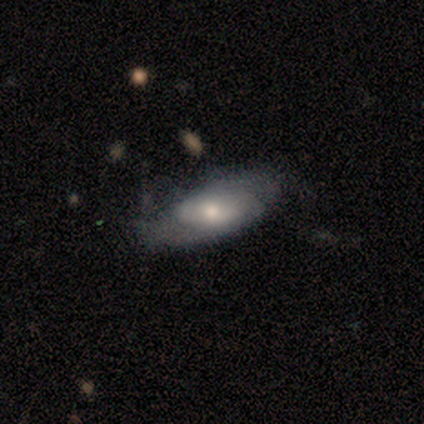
This appears to be a featured or disk galaxy (80%) with a weak bar (75%), 2 (100%) tight (50%, tied with loose) spiral arms (50%, tied with no) and a moderate central bulge (100%). Merging: none (50%).